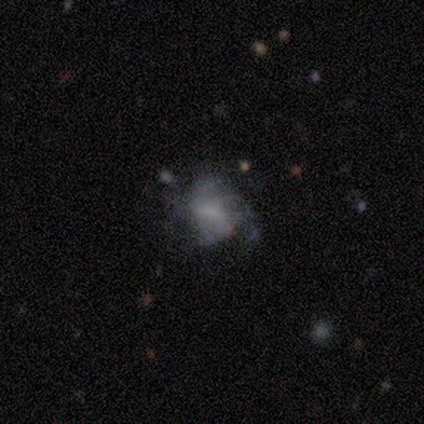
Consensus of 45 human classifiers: Smooth or featured? featured or disk (73%)
Edge-on disk? no (100%)
Bar? weak (58%)
Spiral arms? yes (58%)
Spiral winding? medium (42%)
Spiral arm count? can't tell (58%)
Bulge size? none (48%)
Merging? none (40%, tied with major disturbance)